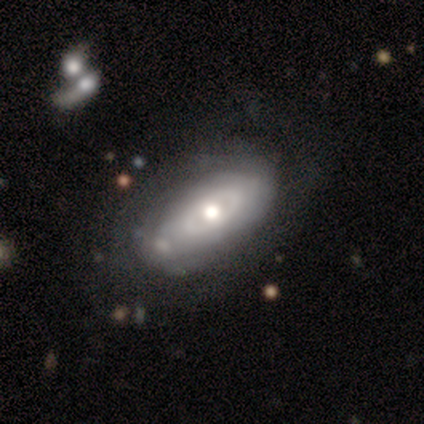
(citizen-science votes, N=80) A featured or disk galaxy (61%) with no bar (88%), no spiral arms (58%) and a moderate central bulge (67%). Merging: none (36%).